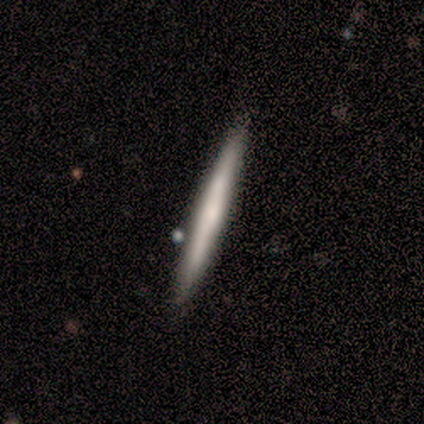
Morphology: type=smooth (75%); roundness=cigar-shaped (89%); merging=none (75%).